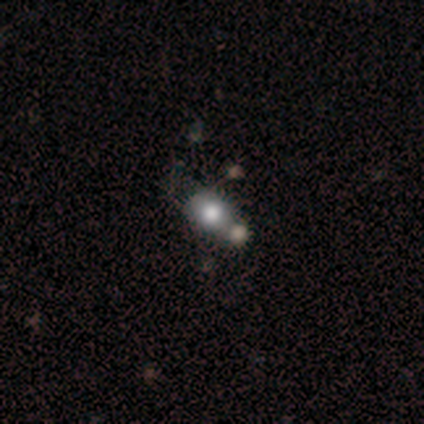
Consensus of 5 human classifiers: Overall: smooth (100%). How rounded: round (60%; in between 40%). Merging: minor disturbance (40%, tied with merger).